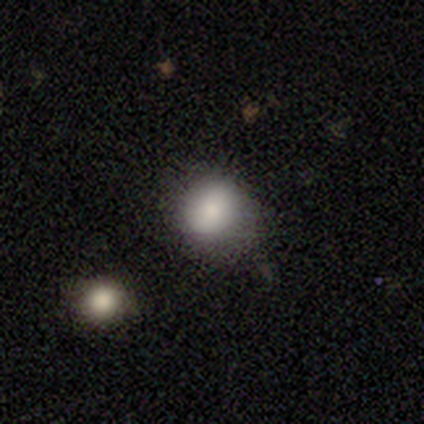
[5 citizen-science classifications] smooth 80%, star or artifact 20%, featured or disk 0%. Down the decision tree: how rounded — round (75%); merging — none (75%).